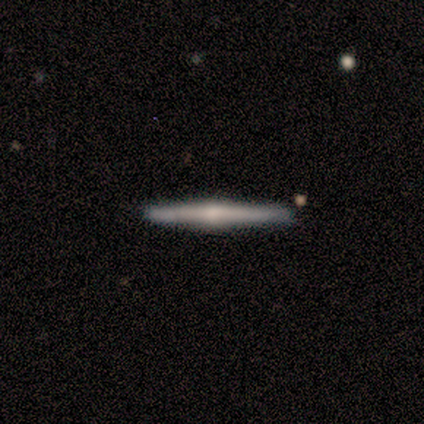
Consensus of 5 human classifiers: Volunteers were most divided on "smooth or featured": featured or disk: 60%, smooth: 40%, star or artifact: 0%. More confident: edge-on disk — yes (100%); edge-on bulge — rounded (100%); merging — none (100%).